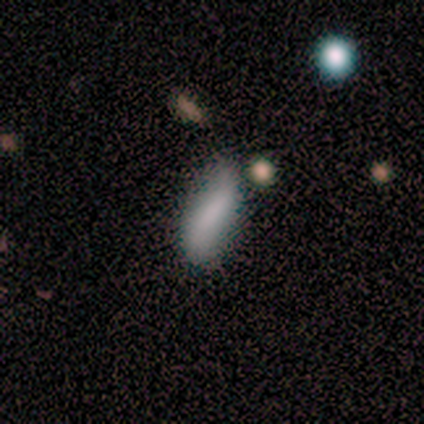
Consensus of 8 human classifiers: smooth_or_featured: smooth (p=0.75) [alt: featured or disk p=0.12]
how_rounded: in between (p=0.83) [alt: cigar-shaped p=0.17]
merging: none (p=0.71) [alt: minor disturbance p=0.29]